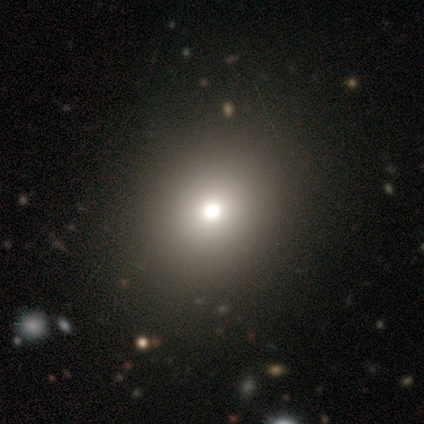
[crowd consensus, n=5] This is marginally a smooth galaxy (40%, tied with star or artifact). How rounded: possibly round (50%, tied with in between). Merging: clearly none (100%).